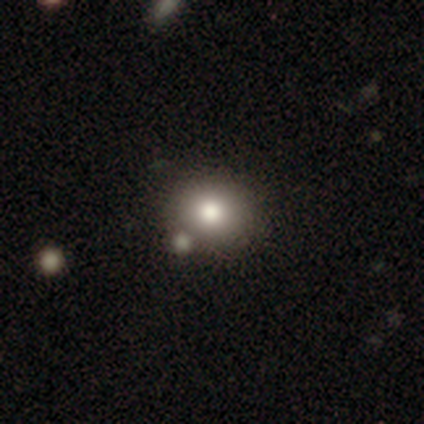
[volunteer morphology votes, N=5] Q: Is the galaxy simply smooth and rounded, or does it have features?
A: smooth — 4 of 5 (80%).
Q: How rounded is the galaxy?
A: round — 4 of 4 (100%).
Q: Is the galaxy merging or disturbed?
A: none — 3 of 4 (75%).